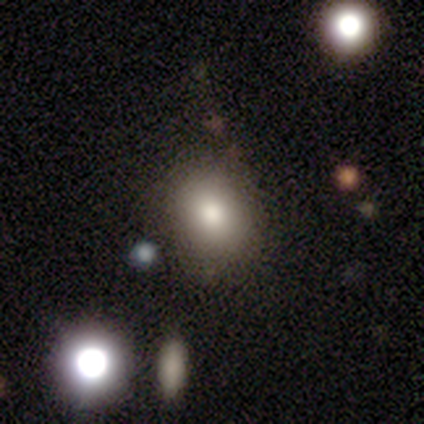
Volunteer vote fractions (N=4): Smooth or featured? smooth (75%)
How rounded? in between (67%)
Merging? none (33%, tied with minor disturbance and major disturbance)